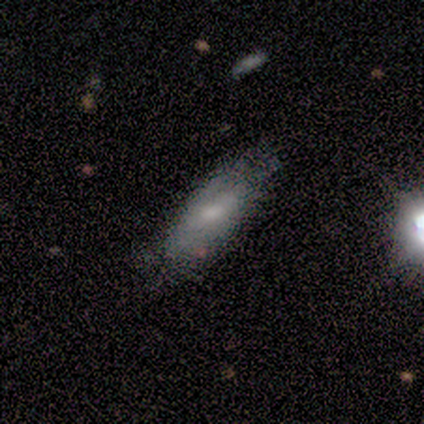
This appears to be a smooth galaxy with no disk features (51%) that is in between round and cigar-shaped (68%). Merging: none (52%).